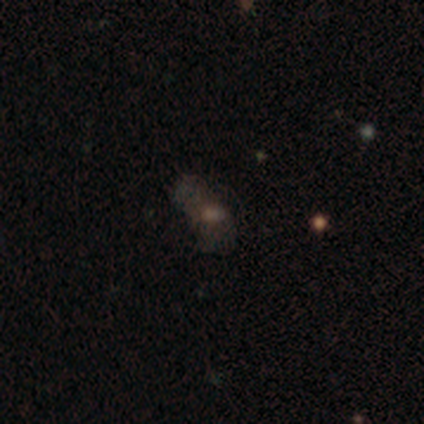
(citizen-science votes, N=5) This appears to be a smooth galaxy with no disk features (80%) that is in between round and cigar-shaped (100%). Merging: none (50%, tied with minor disturbance).